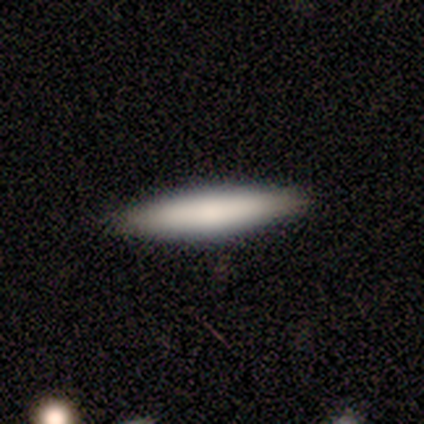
smooth_or_featured: smooth (p=0.80) [alt: featured or disk p=0.20]
how_rounded: cigar-shaped (p=0.75) [alt: in between p=0.25]
merging: none (p=0.80) [alt: minor disturbance p=0.20]